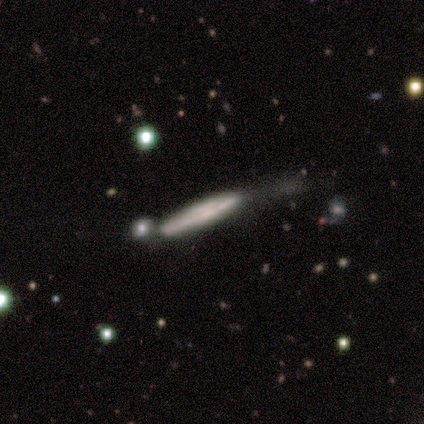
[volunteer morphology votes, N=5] Smooth or featured?
  - smooth: 60% *
  - featured or disk: 40%
  - star or artifact: 0%
How rounded?
  - cigar-shaped: 100% *
  - round: 0%
  - in between: 0%
Merging?
  - none: 40% * (tied)
  - minor disturbance: 40% * (tied)
  - major disturbance: 20%
  - merger: 0%